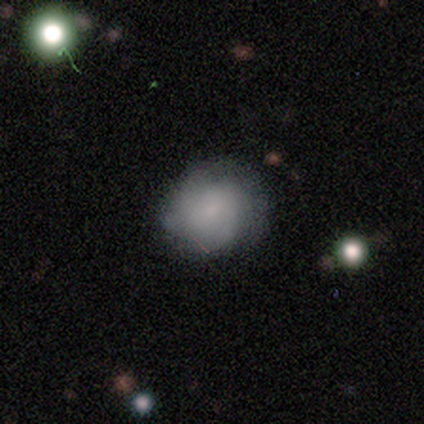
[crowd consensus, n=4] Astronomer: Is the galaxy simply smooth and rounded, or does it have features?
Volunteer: featured or disk — 75%.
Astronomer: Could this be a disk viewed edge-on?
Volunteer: no — 100%.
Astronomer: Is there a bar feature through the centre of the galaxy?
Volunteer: no — 100%.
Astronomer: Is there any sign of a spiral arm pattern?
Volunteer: yes — 67%.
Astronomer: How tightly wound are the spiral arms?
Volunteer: tight — 50%, tied with medium at 50%.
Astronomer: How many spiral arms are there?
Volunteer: can't tell — 100%.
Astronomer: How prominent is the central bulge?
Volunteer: none — 100%.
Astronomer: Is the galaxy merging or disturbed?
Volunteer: none — 50%.